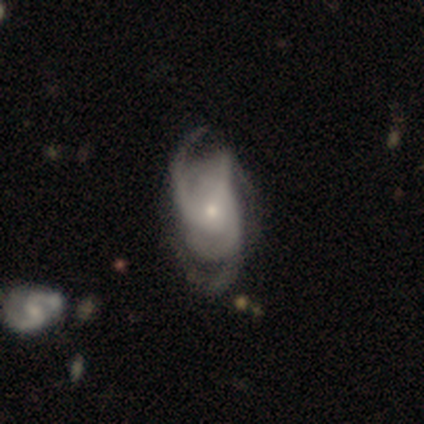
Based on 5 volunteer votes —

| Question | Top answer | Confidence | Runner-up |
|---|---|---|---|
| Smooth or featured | featured or disk | 100% | — |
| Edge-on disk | no | 100% | — |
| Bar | no | 80% | weak (20%) |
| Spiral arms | yes | 100% | — |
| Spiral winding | medium | 80% | tight (20%) |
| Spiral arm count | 3 | 80% | can't tell (20%) |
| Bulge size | small | 100% | — |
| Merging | none | 80% | merger (20%) |